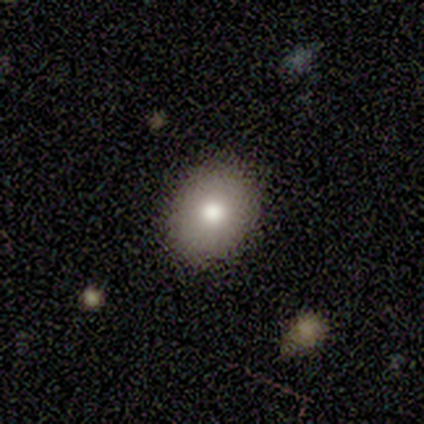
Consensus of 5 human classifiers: This is clearly a smooth galaxy (80%). How rounded: likely round (75%). Merging: clearly none (100%).